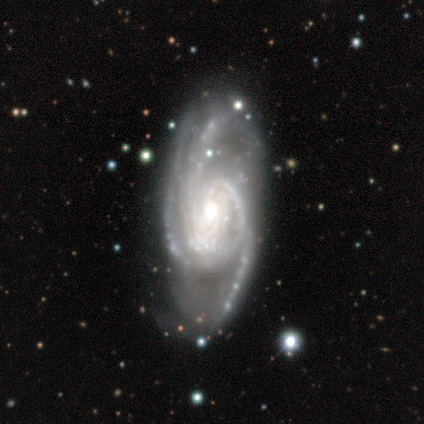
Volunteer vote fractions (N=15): Q: Smooth or featured?
A: featured or disk (93%); runner-up: star or artifact (7%)
Q: Edge-on disk?
A: no (93%); runner-up: yes (7%)
Q: Bar?
A: no (46%); runner-up: weak (38%)
Q: Spiral arms?
A: yes (100%)
Q: Spiral winding?
A: tight (46%); runner-up: medium (38%)
Q: Spiral arm count?
A: 3 (46%); runner-up: more than 4 (23%)
Q: Bulge size?
A: moderate (77%); runner-up: small (15%)
Q: Merging?
A: none (50%); runner-up: minor disturbance (29%)